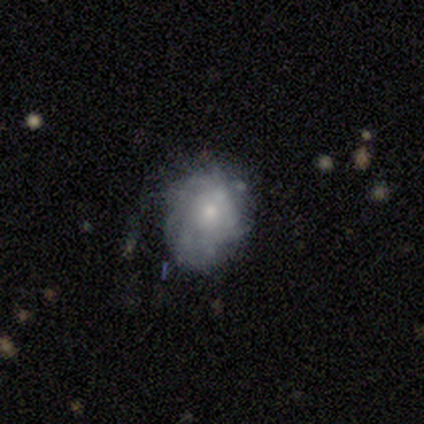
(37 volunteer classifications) A featured or disk galaxy (57%) with no bar (90%), tight (38%, tied with loose) spiral arms (62%) and a small central bulge (52%). Merging: none (65%).